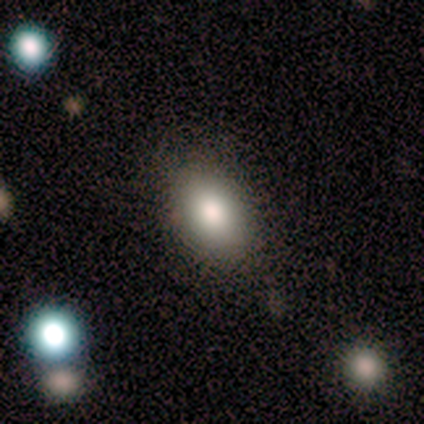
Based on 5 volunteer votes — Smooth or featured? 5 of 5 (100%) said smooth. How rounded? 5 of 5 (100%) said in between. Merging? 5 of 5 (100%) said none.